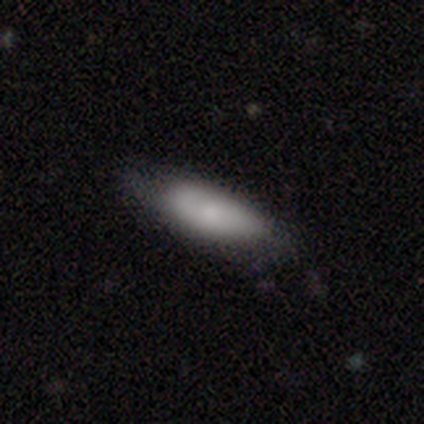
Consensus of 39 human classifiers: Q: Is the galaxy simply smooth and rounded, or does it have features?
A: smooth — 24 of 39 (62%).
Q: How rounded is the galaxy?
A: in between — 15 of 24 (62%).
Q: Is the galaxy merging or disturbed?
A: none — 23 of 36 (64%).